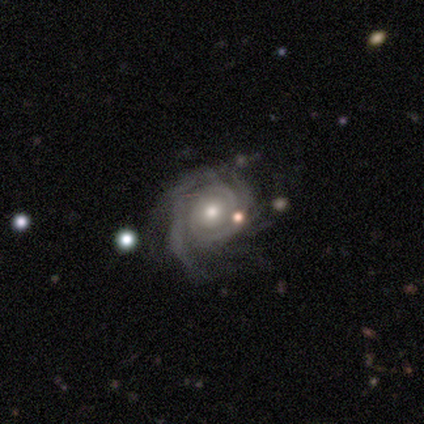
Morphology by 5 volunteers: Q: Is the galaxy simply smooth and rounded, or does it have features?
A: featured or disk — 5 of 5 (100%).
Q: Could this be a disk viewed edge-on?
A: no — 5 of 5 (100%).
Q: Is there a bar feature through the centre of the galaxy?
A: no — 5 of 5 (100%).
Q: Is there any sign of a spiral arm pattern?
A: yes — 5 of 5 (100%).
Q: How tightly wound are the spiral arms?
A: tight — 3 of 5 (60%).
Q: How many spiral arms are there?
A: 2 — 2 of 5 (40%).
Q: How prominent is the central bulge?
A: moderate — 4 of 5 (80%).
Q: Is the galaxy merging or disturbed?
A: none — 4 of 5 (80%).